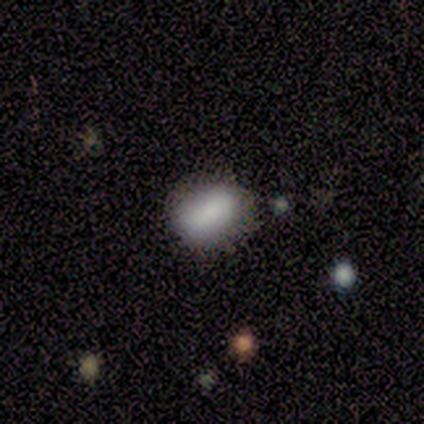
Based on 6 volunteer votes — Morphology: type=smooth (83%); roundness=in between (60%); merging=none (60%).